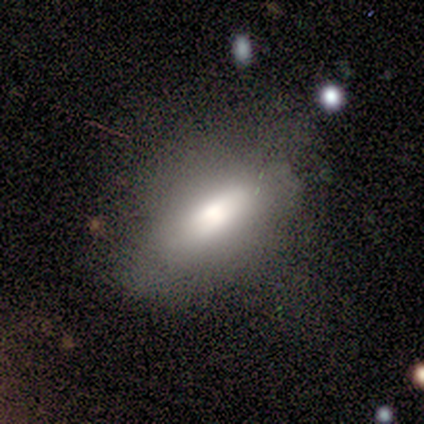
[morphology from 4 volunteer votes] Volunteers were most divided on "smooth or featured" (2-way tie): smooth: 50%, featured or disk: 50%, star or artifact: 0%. More confident: how rounded — in between (100%); merging — none (50%).